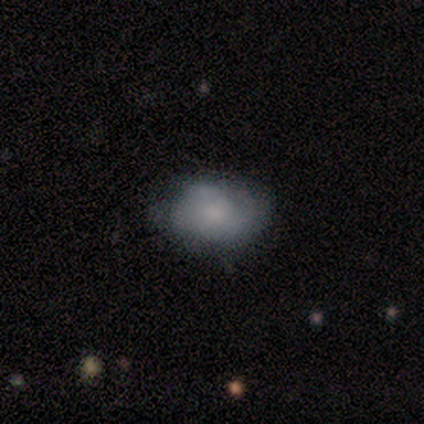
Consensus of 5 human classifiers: This is clearly a smooth galaxy (80%). How rounded: likely in between (75%). Merging: marginally none (40%, tied with minor disturbance).